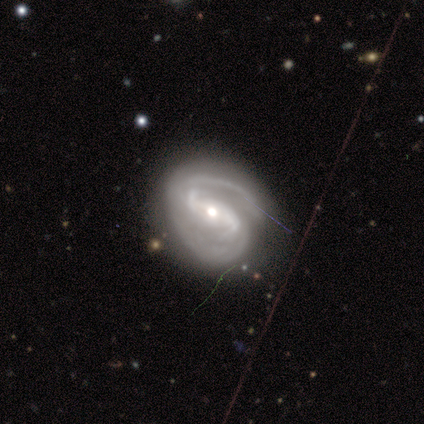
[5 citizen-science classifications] A featured or disk galaxy (100%) with no bar (60%), 2 (80%) medium (80%) spiral arms (100%) and a small central bulge (60%). Merging: none (80%).